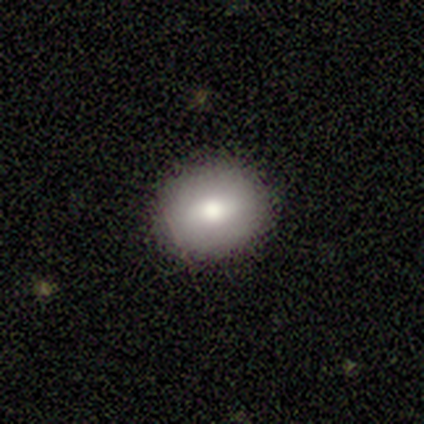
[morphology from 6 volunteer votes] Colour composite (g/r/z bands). It shows a smooth galaxy with no disk features (67%) that is in between round and cigar-shaped (75%). Merging: none (100%).